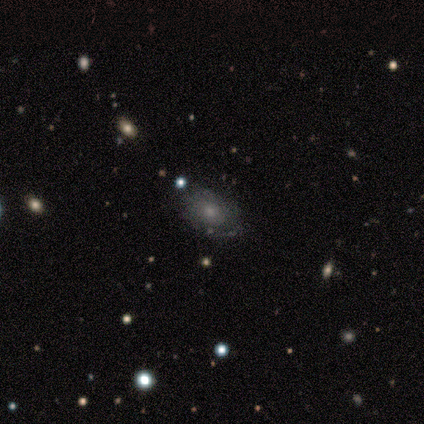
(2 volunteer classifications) Smooth or featured: smooth — 50% (tied with featured or disk — 50%)
How rounded: round — 100%
Merging: none — 50% (tied with minor disturbance — 50%)